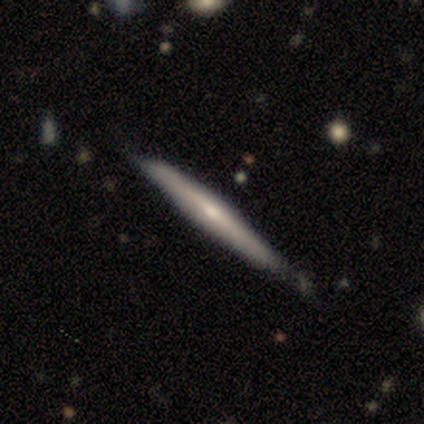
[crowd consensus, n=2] smooth-or-featured: smooth: 50% (tied) | featured or disk: 50% (tied) | star or artifact: 0%
  how-rounded: cigar-shaped: 100% | round: 0% | in between: 0%
  merging: none: 50% (tied) | minor disturbance: 50% (tied) | major disturbance: 0% | merger: 0%